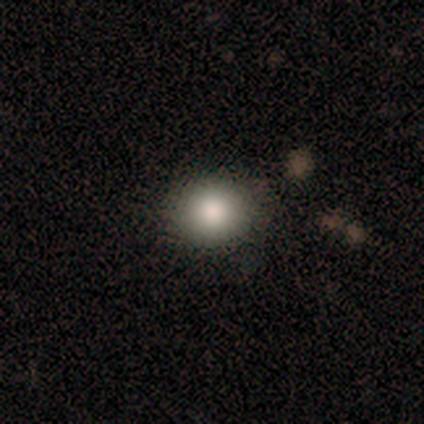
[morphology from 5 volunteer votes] A smooth galaxy with no disk features (80%) that is round (75%).

Vote fractions:
- Smooth or featured? smooth: 80% / featured or disk: 20% / star or artifact: 0%
- How rounded? round: 75% / in between: 25% / cigar-shaped: 0%
- Merging? none: 100% / minor disturbance: 0% / major disturbance: 0% / merger: 0%